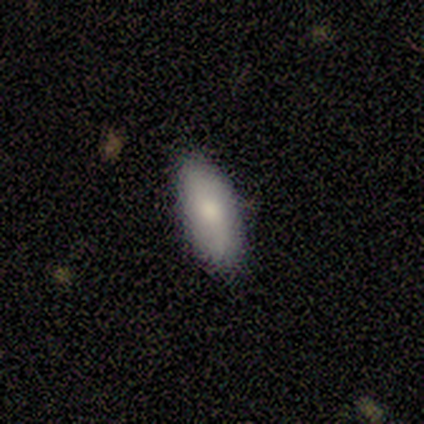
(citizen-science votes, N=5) Smooth or featured? featured or disk (80%)
Edge-on disk? no (100%)
Bar? no (75%)
Spiral arms? yes (75%)
Spiral winding? loose (100%)
Spiral arm count? 1 (33%, tied with 2 and can't tell)
Bulge size? moderate (50%)
Merging? none (40%, tied with minor disturbance)